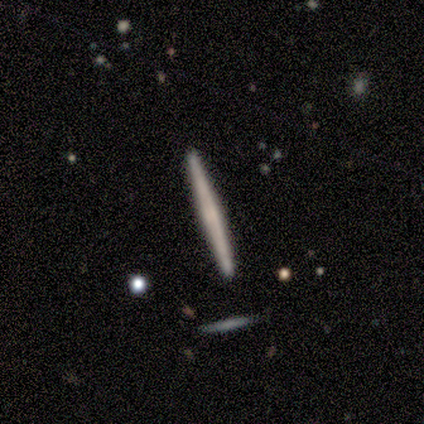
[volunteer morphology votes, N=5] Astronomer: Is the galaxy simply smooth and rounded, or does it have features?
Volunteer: smooth — 80%.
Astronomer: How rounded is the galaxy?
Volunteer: cigar-shaped — 100%.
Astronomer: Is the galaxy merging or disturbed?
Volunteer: none — 100%.